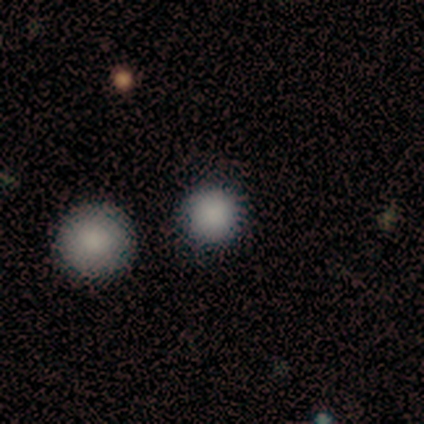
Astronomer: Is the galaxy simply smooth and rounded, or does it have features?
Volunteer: smooth — 88%.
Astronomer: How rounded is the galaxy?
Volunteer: round — 97%.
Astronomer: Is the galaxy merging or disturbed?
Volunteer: none — 79%.